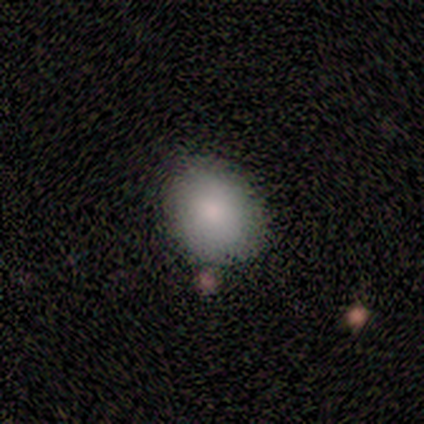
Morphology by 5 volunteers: A smooth galaxy with no disk features (100%) that is in between round and cigar-shaped (60%). Merging: none (100%).